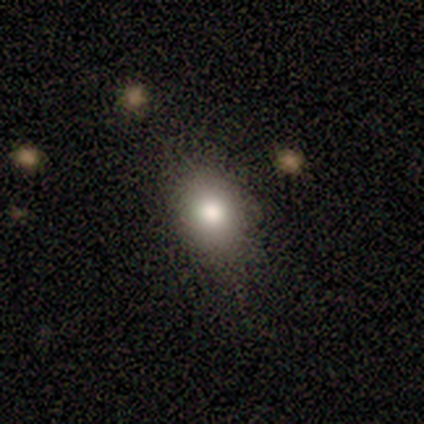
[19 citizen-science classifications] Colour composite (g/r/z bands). It shows a smooth galaxy with no disk features (84%) that is in between round and cigar-shaped (69%). Merging: none (69%).